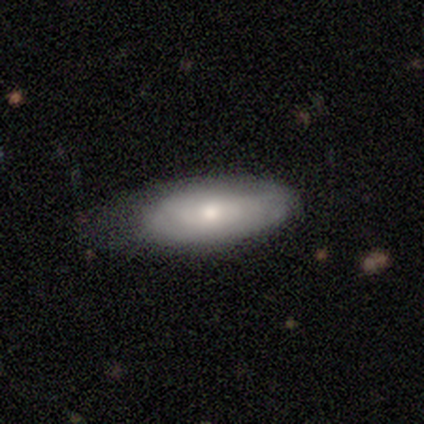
A smooth galaxy with no disk features (75%) that is in between round and cigar-shaped (90%).

Vote fractions:
- Smooth or featured? smooth: 75% / featured or disk: 25% / star or artifact: 0%
- How rounded? in between: 90% / cigar-shaped: 10% / round: 0%
- Merging? none: 57% / minor disturbance: 30% / major disturbance: 10% / merger: 2%